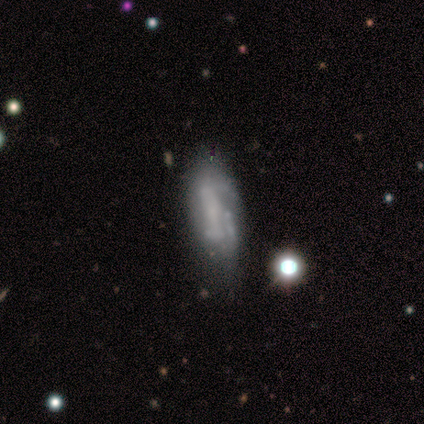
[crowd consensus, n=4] smooth 50% (tied), star or artifact 50% (tied), featured or disk 0%. Down the decision tree: how rounded — in between (100%); merging — none (50%, tied with minor disturbance).